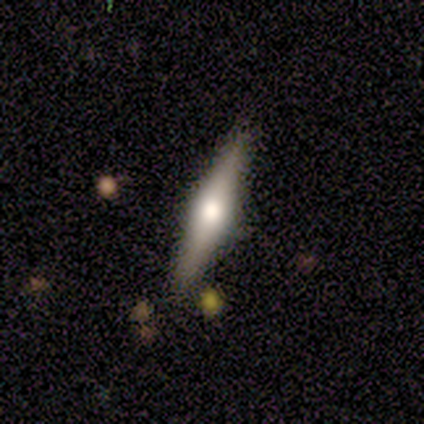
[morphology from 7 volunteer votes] This appears to be a featured or disk galaxy (71%) viewed edge-on (100%) with a rounded central bulge (100%). Merging: none (71%).